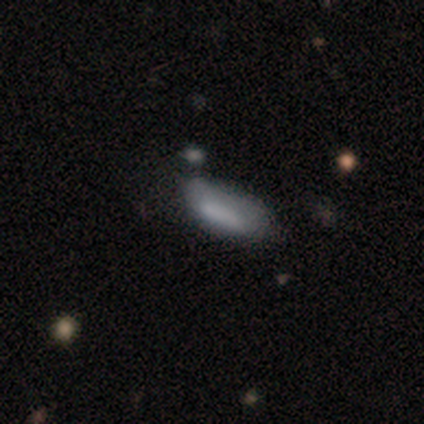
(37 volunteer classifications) Q: Smooth or featured?
A: smooth (62%); runner-up: featured or disk (22%)
Q: How rounded?
A: in between (70%); runner-up: cigar-shaped (30%)
Q: Merging?
A: none (58%); runner-up: minor disturbance (29%)